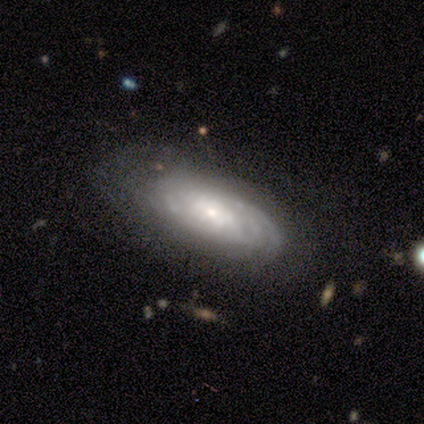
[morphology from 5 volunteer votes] Smooth or featured: featured or disk — 80% (smooth — 20%)
Edge-on disk: no — 75% (yes — 25%)
Bar: strong — 33% (tied with weak — 33%; no — 33%)
Spiral arms: yes — 67% (no — 33%)
Spiral winding: tight — 100%
Spiral arm count: 3 — 50% (tied with can't tell — 50%)
Bulge size: small — 100%
Merging: none — 40% (tied with minor disturbance — 40%)